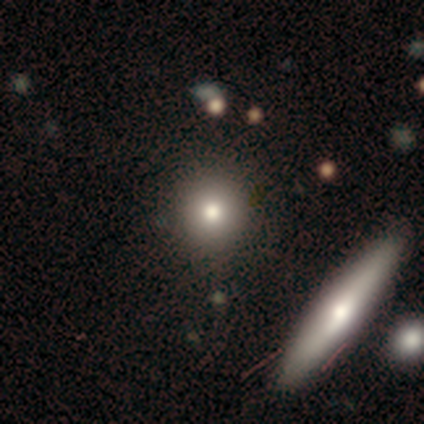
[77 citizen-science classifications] smooth-or-featured: smooth: 86% | featured or disk: 10% | star or artifact: 4%
  how-rounded: round: 89% | in between: 6% | cigar-shaped: 5%
  merging: none: 47% | merger: 7% | major disturbance: 3% | minor disturbance: 0%